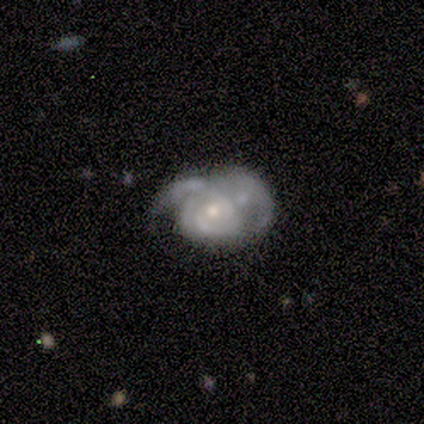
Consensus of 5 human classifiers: Q: Smooth or featured?
A: featured or disk (100%)
Q: Edge-on disk?
A: no (100%)
Q: Bar?
A: no (100%)
Q: Spiral arms?
A: yes (100%)
Q: Spiral winding?
A: loose (60%); runner-up: tight (40%)
Q: Spiral arm count?
A: can't tell (80%); runner-up: 3 (20%)
Q: Bulge size?
A: small (60%); runner-up: moderate (40%)
Q: Merging?
A: none (40%); tied with: merger (40%)